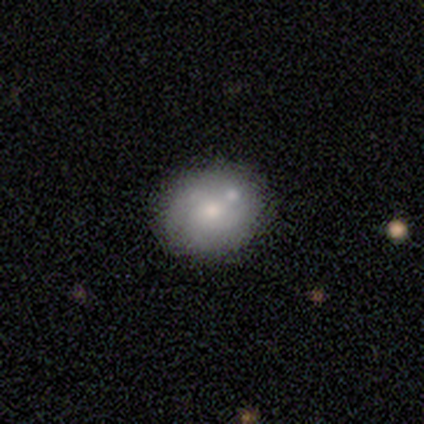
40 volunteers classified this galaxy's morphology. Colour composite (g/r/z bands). It shows a smooth galaxy with no disk features (50%, tied with featured or disk) that is round (75%). Merging: none (55%).